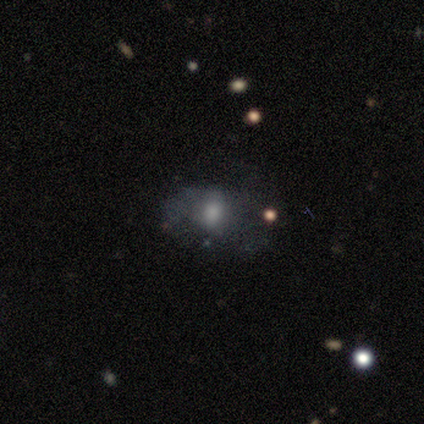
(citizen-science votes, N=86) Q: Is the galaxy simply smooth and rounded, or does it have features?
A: smooth — 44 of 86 (51%).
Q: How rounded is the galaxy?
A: in between — 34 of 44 (77%).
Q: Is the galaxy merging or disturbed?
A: none — 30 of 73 (41%).